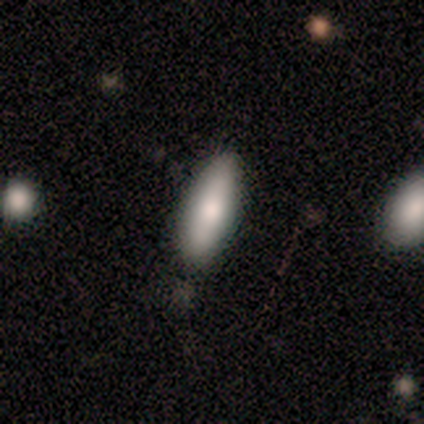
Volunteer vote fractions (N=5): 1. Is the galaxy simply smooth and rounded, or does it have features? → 40% smooth (tied), 40% star or artifact (tied), 20% featured or disk.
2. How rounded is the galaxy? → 50% in between (tied), 50% cigar-shaped (tied), 0% round.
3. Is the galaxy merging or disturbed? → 100% none, 0% minor disturbance, 0% major disturbance, 0% merger.